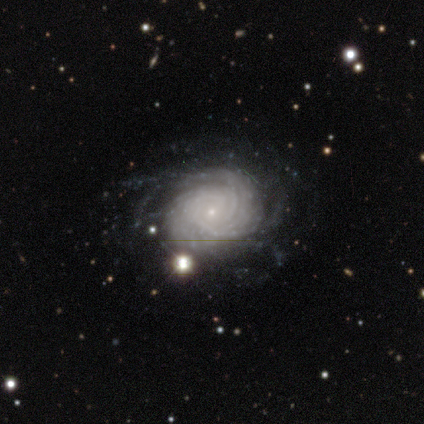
Volunteers were most divided on "spiral arm count": can't tell: 62%, more than 4: 38%, 1: 0%, 2: 0%, 3: 0%, 4: 0%. More confident: edge-on disk — no (100%); bar — no (100%); spiral arms — yes (100%); spiral winding — tight (88%); bulge size — small (88%); smooth or featured — featured or disk (80%); merging — none (67%).